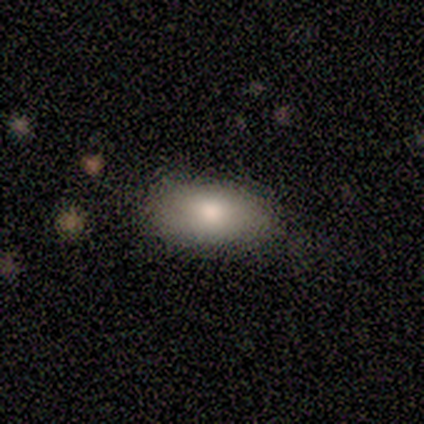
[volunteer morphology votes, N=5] This is likely a smooth galaxy (60%). How rounded: clearly in between (100%). Merging: likely none (67%).